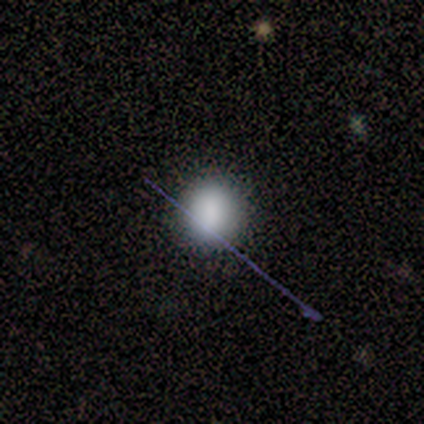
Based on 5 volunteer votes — Smooth or featured? 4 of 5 (80%) said smooth. How rounded? 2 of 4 (50%, tied with in between) said round. Merging? 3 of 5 (60%) said none.